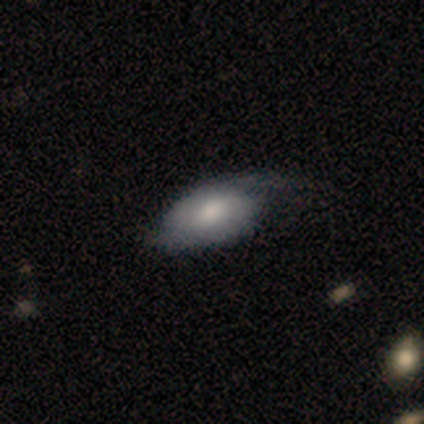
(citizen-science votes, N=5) A featured or disk galaxy (60%) with no bar (67%), no spiral arms (67%) and a dominant central bulge (33%, tied with large and none). Merging: major disturbance (100%).